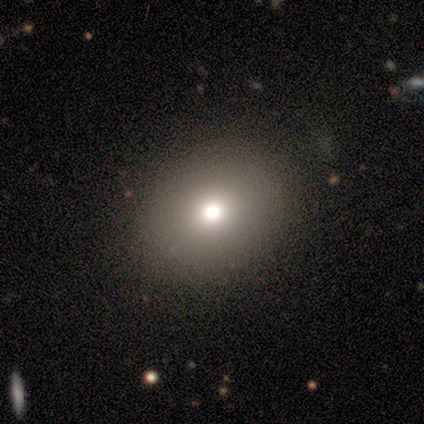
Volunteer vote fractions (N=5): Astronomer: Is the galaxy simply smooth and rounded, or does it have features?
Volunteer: smooth — 60%.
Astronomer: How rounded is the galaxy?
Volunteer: in between — 67%.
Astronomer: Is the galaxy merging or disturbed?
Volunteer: none — 75%.